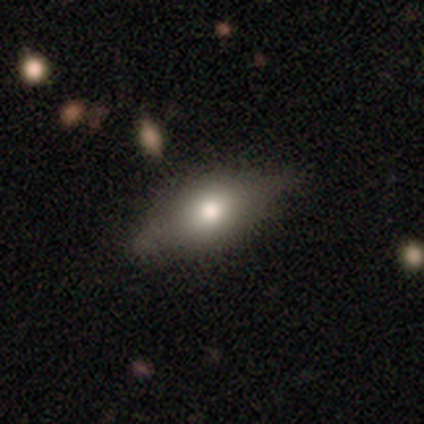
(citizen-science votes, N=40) A smooth galaxy with no disk features (60%) that is in between round and cigar-shaped (88%).

Vote fractions:
- Smooth or featured? smooth: 60% / featured or disk: 40% / star or artifact: 0%
- How rounded? in between: 88% / cigar-shaped: 12% / round: 0%
- Merging? none: 45% / minor disturbance: 20% / major disturbance: 8% / merger: 0%